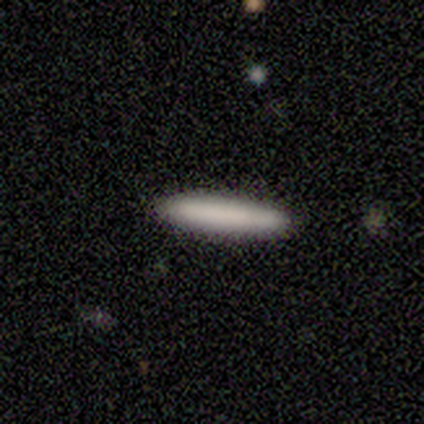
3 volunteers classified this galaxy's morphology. A smooth galaxy with no disk features (100%) that is cigar-shaped (67%). Merging: none (100%).